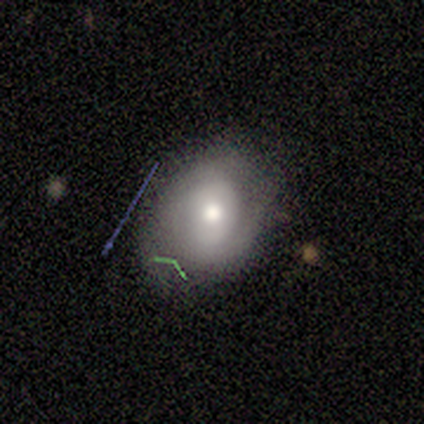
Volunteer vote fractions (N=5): Smooth or featured?
  - smooth: 80% *
  - star or artifact: 20%
  - featured or disk: 0%
How rounded?
  - round: 50% * (tied)
  - in between: 50% * (tied)
  - cigar-shaped: 0%
Merging?
  - none: 75% *
  - minor disturbance: 25%
  - major disturbance: 0%
  - merger: 0%